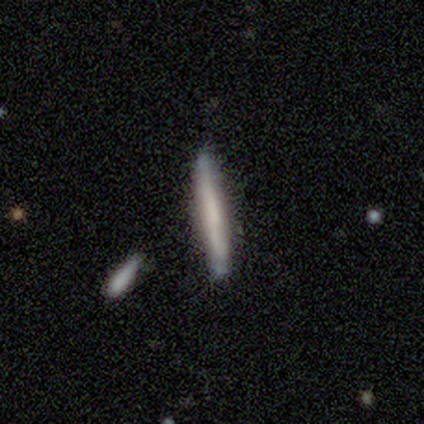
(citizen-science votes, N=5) Q: Smooth or featured?
A: featured or disk (60%); runner-up: smooth (40%)
Q: Edge-on disk?
A: yes (100%)
Q: Edge-on bulge?
A: none (100%)
Q: Merging?
A: none (80%); runner-up: minor disturbance (20%)